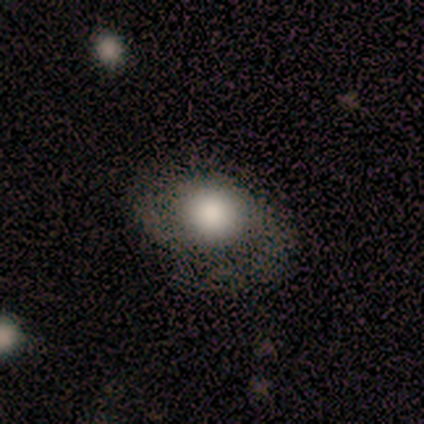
This is likely a smooth galaxy (60%). How rounded: likely in between (67%). Merging: clearly none (100%).